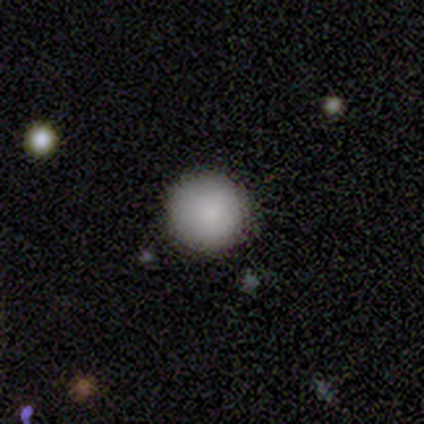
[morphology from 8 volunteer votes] Smooth or featured? smooth (100%)
How rounded? round (100%)
Merging? none (100%)